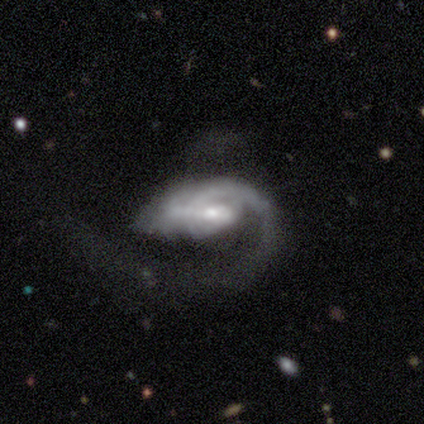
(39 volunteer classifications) Morphology: type=featured or disk (87%); edge-on=no (100%); bar=weak (44%); spiral arms=yes (85%); winding=loose (55%); arm count=1 (83%); bulge=moderate (47%); merging=major disturbance (54%).